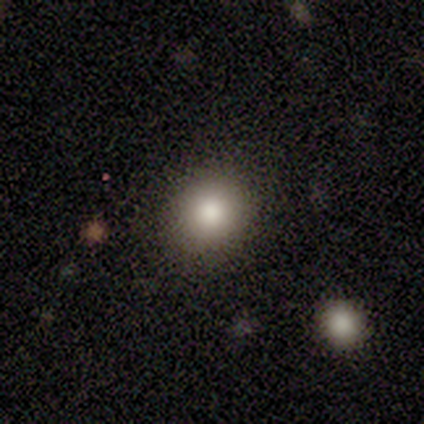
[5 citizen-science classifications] Q: Smooth or featured?
A: smooth (60%); runner-up: star or artifact (40%)
Q: How rounded?
A: round (100%)
Q: Merging?
A: none (67%); runner-up: major disturbance (33%)